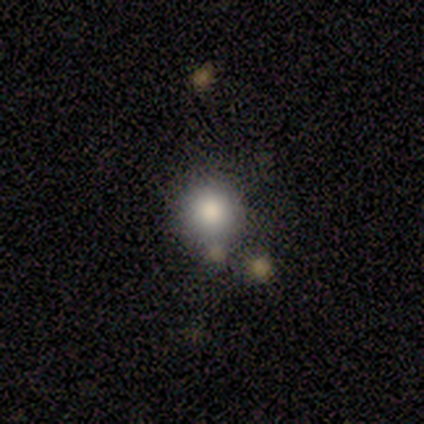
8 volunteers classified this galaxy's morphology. smooth 88%, featured or disk 12%, star or artifact 0%. Down the decision tree: how rounded — round (100%); merging — none (88%).